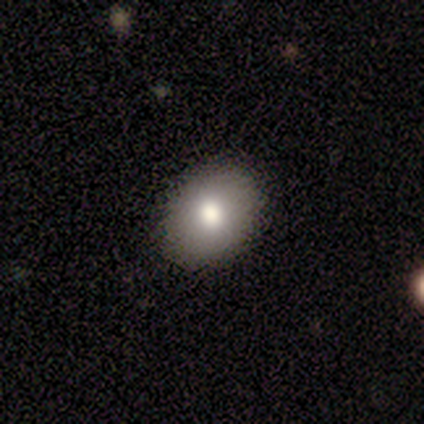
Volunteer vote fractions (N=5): Smooth or featured: smooth — 40% (tied with featured or disk — 40%)
How rounded: round — 100%
Merging: none — 100%